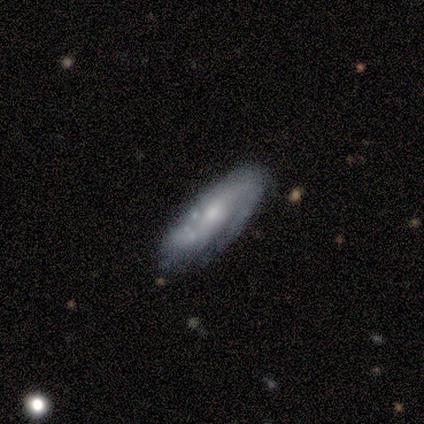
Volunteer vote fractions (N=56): This is likely a featured or disk galaxy (77%). It is clearly not viewed edge-on (81%). Bar: likely no (60%). Spiral arm pattern: clearly yes (83%). Spiral arm count: possibly 2 (59%). Spiral winding: possibly tight (52%). Central bulge: possibly moderate (54%). Merging: likely none (71%).